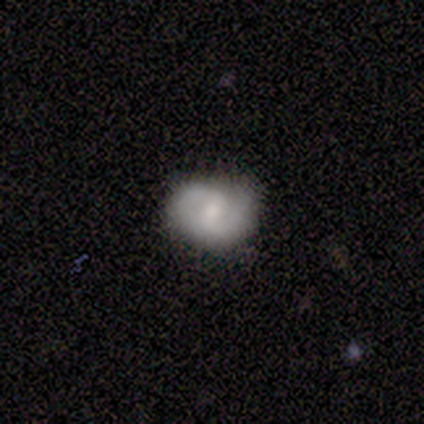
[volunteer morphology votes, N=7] Overall: featured or disk (57%; smooth 43%). Edge-on disk: no (100%). Bar: weak (75%). Spiral arms: yes (100%). Spiral arm count: 2 (75%). Spiral winding: medium (75%). Bulge size: moderate (50%, tied with small). Merging: none (43%, tied with minor disturbance).